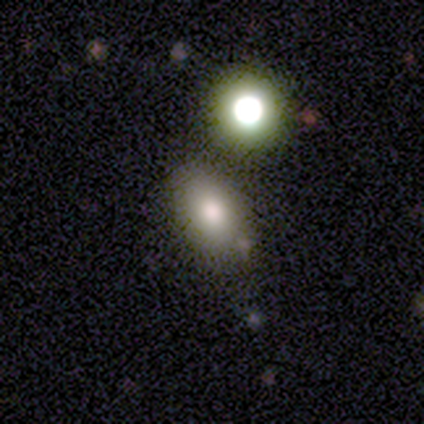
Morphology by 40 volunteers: smooth 65%, featured or disk 18%, star or artifact 18%. Down the decision tree: how rounded — in between (88%); merging — none (85%).